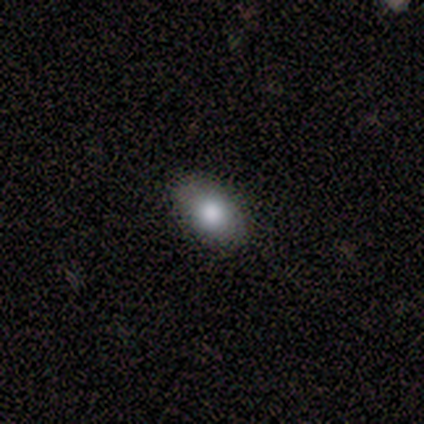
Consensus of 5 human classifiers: This is likely a smooth galaxy (60%). How rounded: clearly in between (100%). Merging: possibly none (50%, tied with minor disturbance).